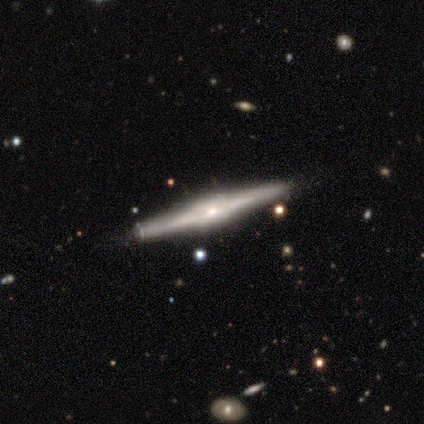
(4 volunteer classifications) Morphology: type=featured or disk (100%); edge-on=yes (75%); edge-on bulge=boxy (67%); merging=none (75%).